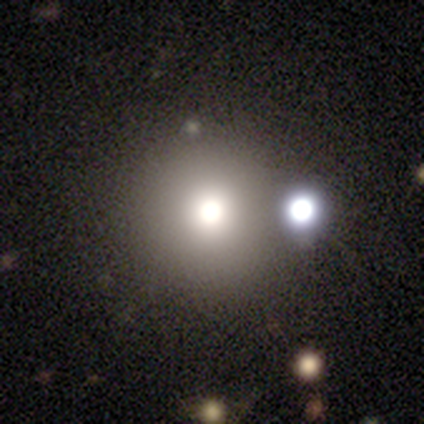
smooth_or_featured: smooth (p=0.60) [alt: star or artifact p=0.40]
how_rounded: round (p=1.00)
merging: none (p=1.00)